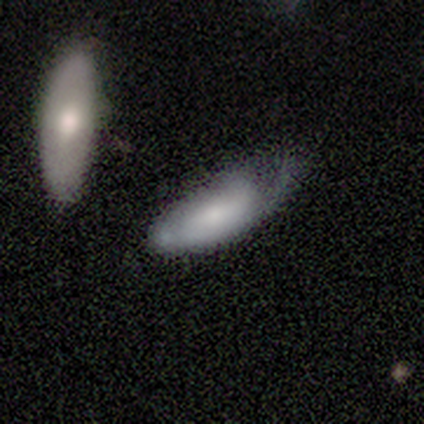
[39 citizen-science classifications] This appears to be a smooth galaxy with no disk features (64%) that is in between round and cigar-shaped (80%). Merging: minor disturbance (33%).